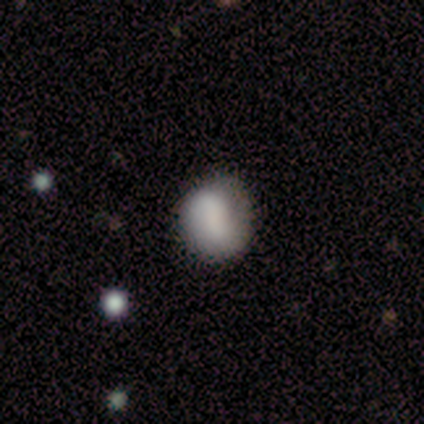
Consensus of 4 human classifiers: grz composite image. It shows a smooth galaxy with no disk features (75%) that is round (100%). Merging: none (50%, tied with minor disturbance).